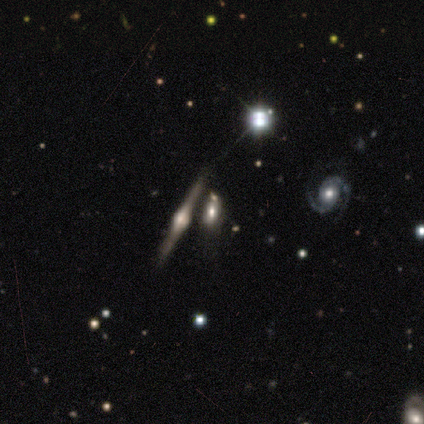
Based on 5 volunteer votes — Smooth or featured: featured or disk — 80% (smooth — 20%)
Edge-on disk: yes — 75% (no — 25%)
Edge-on bulge: rounded — 100%
Merging: none — 100%